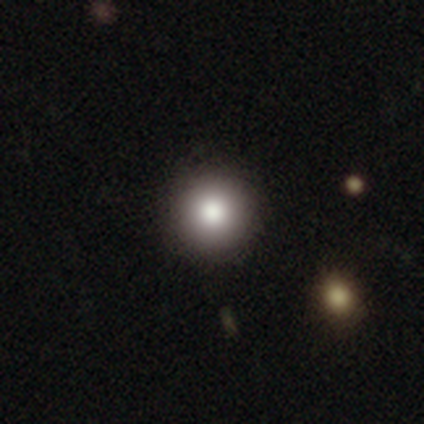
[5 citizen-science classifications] Smooth or featured: smooth — 80% (star or artifact — 20%)
How rounded: round — 100%
Merging: none — 100%